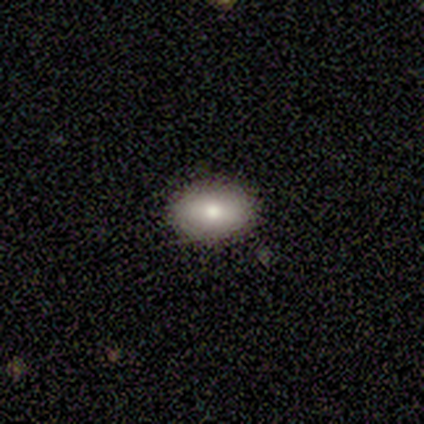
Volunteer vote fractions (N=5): This appears to be a smooth galaxy with no disk features (100%) that is in between round and cigar-shaped (80%). Merging: none (100%).